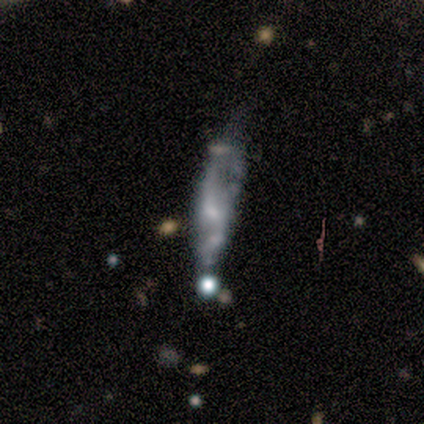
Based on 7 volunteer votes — Overall: featured or disk (86%). Edge-on disk: no (83%). Bar: no (80%). Spiral arms: yes (60%; no 40%). Spiral arm count: 2 (67%; can't tell 33%). Spiral winding: medium (100%). Bulge size: small (60%; moderate 20%). Merging: major disturbance (43%; minor disturbance 29%).